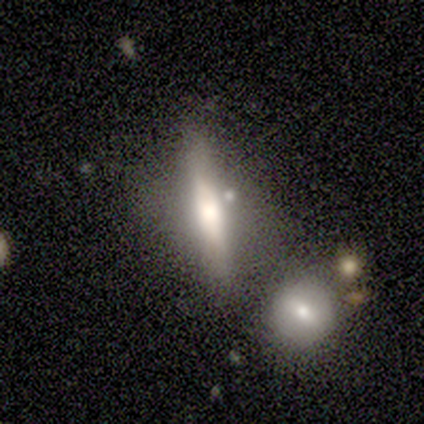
A featured or disk galaxy (80%) viewed edge-on (100%) with a rounded central bulge (100%). Merging: none (60%).